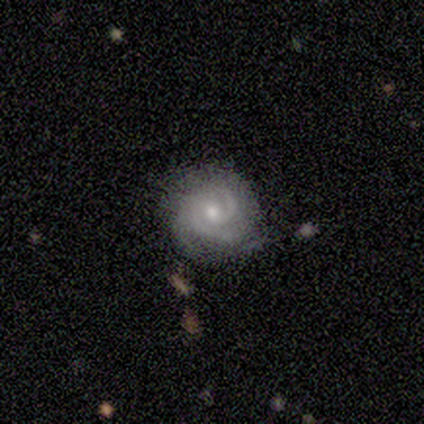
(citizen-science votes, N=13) Smooth or featured? featured or disk (100%)
Edge-on disk? no (100%)
Bar? no (62%)
Spiral arms? yes (100%)
Spiral winding? medium (54%)
Spiral arm count? 2 (62%)
Bulge size? moderate (62%)
Merging? none (77%)